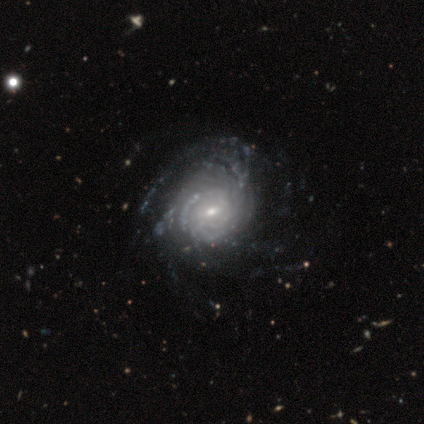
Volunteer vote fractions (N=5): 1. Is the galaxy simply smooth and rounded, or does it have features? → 100% featured or disk, 0% smooth, 0% star or artifact.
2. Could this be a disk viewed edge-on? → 100% no, 0% yes.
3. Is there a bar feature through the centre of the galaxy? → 60% weak, 40% no, 0% strong.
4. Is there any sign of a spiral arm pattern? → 80% yes, 20% no.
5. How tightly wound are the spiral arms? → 50% tight (tied), 50% medium (tied), 0% loose.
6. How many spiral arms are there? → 100% can't tell, 0% 1, 0% 2, 0% 3, 0% 4, 0% more than 4.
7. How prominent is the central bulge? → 60% small, 40% moderate, 0% dominant, 0% large, 0% none.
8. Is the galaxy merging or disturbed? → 40% minor disturbance (tied), 40% major disturbance (tied), 20% none, 0% merger.